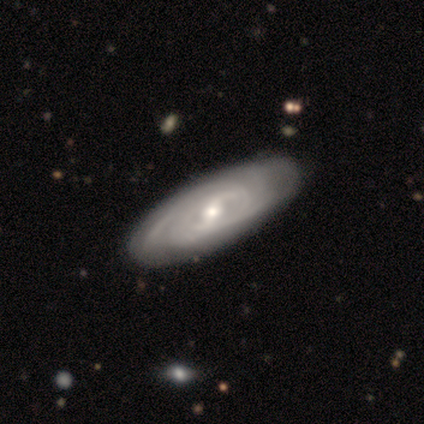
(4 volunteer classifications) A featured or disk galaxy (75%) with a strong bar (50%, tied with weak), 2 (50%, tied with can't tell) medium (50%, tied with loose) spiral arms (100%) and a moderate central bulge (100%).

Vote fractions:
- Smooth or featured? featured or disk: 75% / smooth: 25% / star or artifact: 0%
- Edge-on disk? no: 67% / yes: 33%
- Bar? strong: 50% (tied) / weak: 50% (tied) / no: 0%
- Spiral arms? yes: 100% / no: 0%
- Spiral winding? medium: 50% (tied) / loose: 50% (tied) / tight: 0%
- Spiral arm count? 2: 50% (tied) / can't tell: 50% (tied) / 1: 0% / 3: 0% / 4: 0% / more than 4: 0%
- Bulge size? moderate: 100% / dominant: 0% / large: 0% / small: 0% / none: 0%
- Merging? none: 100% / minor disturbance: 0% / major disturbance: 0% / merger: 0%